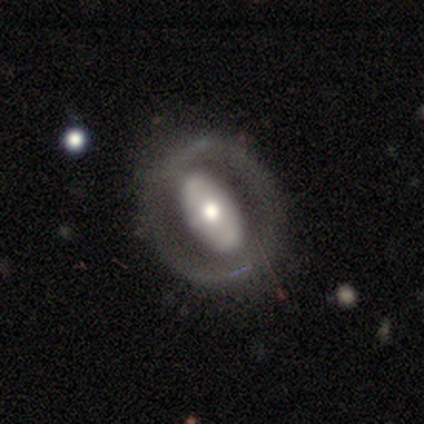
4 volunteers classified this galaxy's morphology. smooth_or_featured: smooth (p=0.50) [tied with: featured or disk p=0.50]
how_rounded: in between (p=1.00)
merging: none (p=0.75) [alt: major disturbance p=0.25]